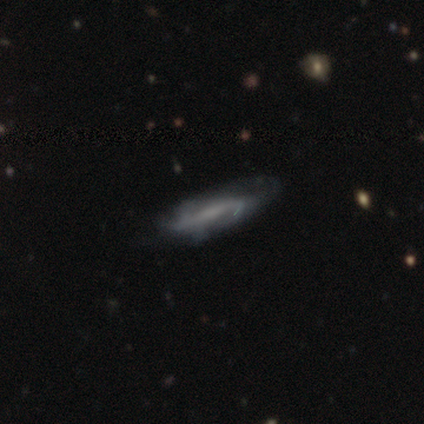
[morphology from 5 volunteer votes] Smooth or featured? 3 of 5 (60%) said featured or disk. Edge-on disk? 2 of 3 (67%) said yes. Edge-on bulge? 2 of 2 (100%) said none. Merging? 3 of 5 (60%) said none.